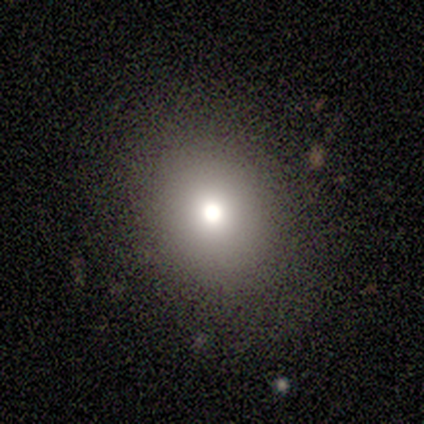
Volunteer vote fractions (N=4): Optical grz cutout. It shows a smooth galaxy with no disk features (75%) that is round (100%). Merging: none (67%).